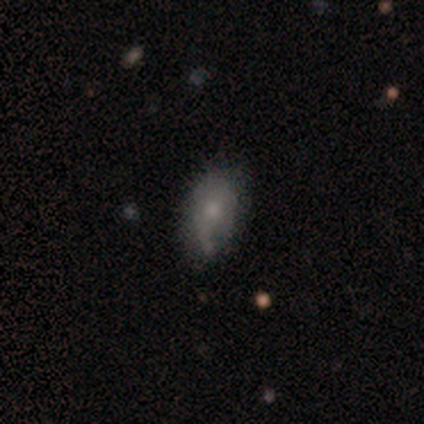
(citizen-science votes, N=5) Smooth or featured?
  - featured or disk: 60% *
  - smooth: 40%
  - star or artifact: 0%
Edge-on disk?
  - no: 100% *
  - yes: 0%
Bar?
  - no: 100% *
  - strong: 0%
  - weak: 0%
Spiral arms?
  - no: 67% *
  - yes: 33%
Bulge size?
  - moderate: 67% *
  - small: 33%
  - dominant: 0%
  - large: 0%
  - none: 0%
Merging?
  - minor disturbance: 60% *
  - none: 20%
  - major disturbance: 20%
  - merger: 0%